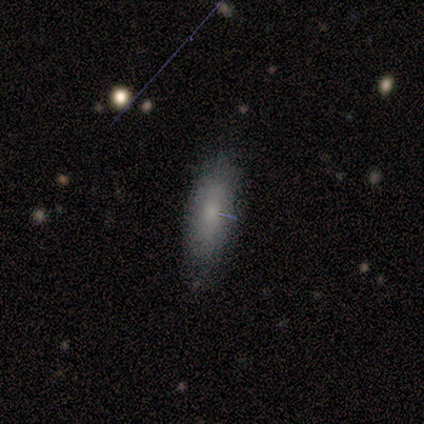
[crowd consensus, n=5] Smooth or featured? smooth (80%)
How rounded? in between (75%)
Merging? none (50%, tied with minor disturbance)